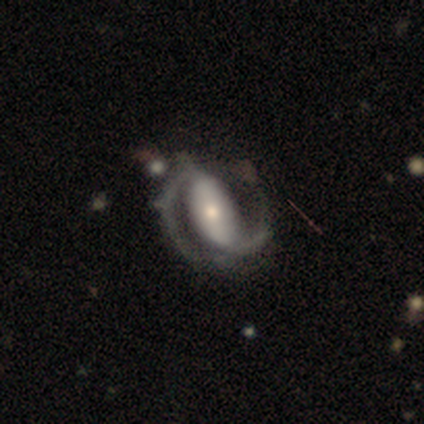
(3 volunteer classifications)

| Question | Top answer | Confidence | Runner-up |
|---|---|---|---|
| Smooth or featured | featured or disk | 100% | — |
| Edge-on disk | no | 100% | — |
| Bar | weak | 67% | strong (33%) |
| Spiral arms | yes | 100% | — |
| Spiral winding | loose | 100% | — |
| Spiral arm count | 2 | 67% | 1 (33%) |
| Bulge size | moderate | 67% | small (33%) |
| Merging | none | 100% | — |